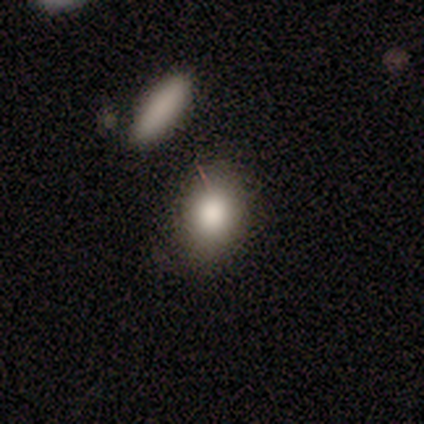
smooth 100%, featured or disk 0%, star or artifact 0%. Down the decision tree: how rounded — in between (60%); merging — none (100%).